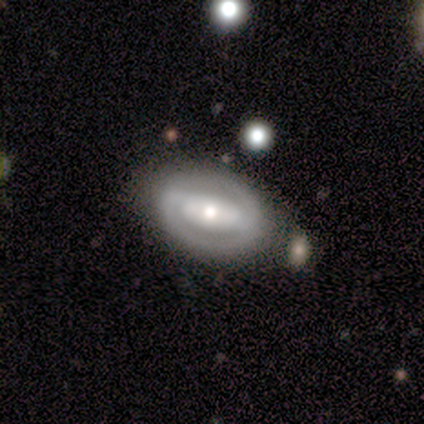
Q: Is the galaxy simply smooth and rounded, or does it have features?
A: featured or disk — 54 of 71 (76%).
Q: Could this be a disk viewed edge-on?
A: no — 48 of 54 (89%).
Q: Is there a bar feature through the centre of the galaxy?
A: strong — 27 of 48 (56%).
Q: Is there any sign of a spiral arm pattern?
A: no — 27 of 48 (56%).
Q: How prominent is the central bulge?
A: moderate — 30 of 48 (62%).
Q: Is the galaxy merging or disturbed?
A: none — 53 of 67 (79%).